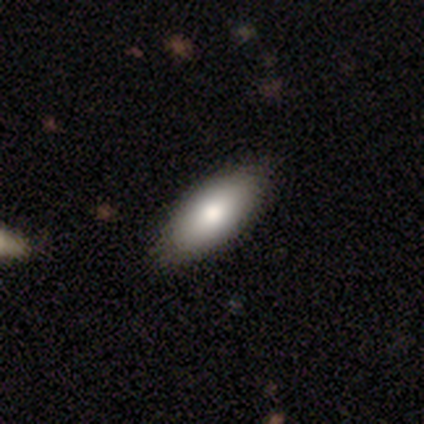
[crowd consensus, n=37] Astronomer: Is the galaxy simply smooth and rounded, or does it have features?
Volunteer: smooth — 81%.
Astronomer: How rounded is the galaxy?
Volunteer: in between — 100%.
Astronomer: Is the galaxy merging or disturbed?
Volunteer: none — 69%.